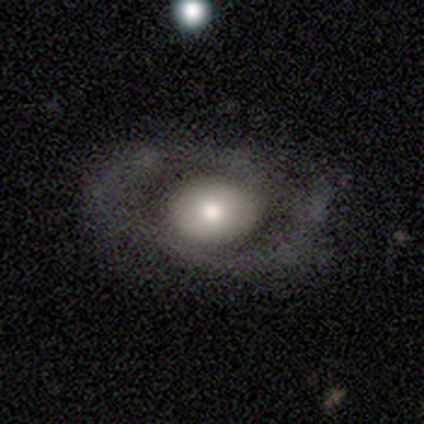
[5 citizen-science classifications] Smooth or featured? smooth (40%, tied with featured or disk)
How rounded? round (50%, tied with in between)
Merging? none (50%, tied with major disturbance)